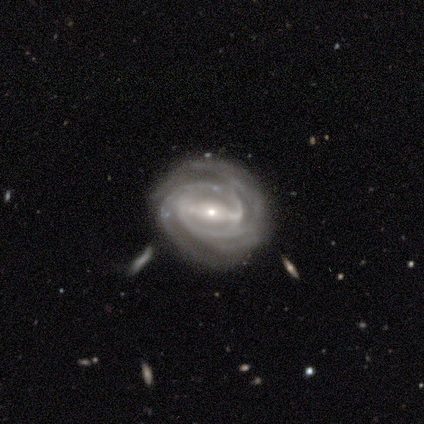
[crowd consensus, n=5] This is clearly a featured or disk galaxy (100%). It is clearly not viewed edge-on (100%). Bar: clearly strong (100%). Spiral arm pattern: clearly yes (100%). Spiral arm count: likely 2 (60%). Spiral winding: likely tight (60%). Central bulge: clearly small (100%). Merging: likely none (60%).